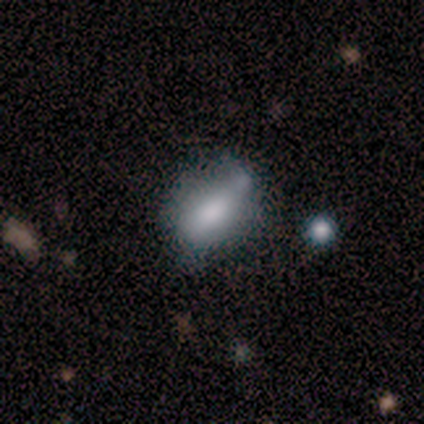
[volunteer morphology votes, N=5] type=smooth (80%); roundness=in between (75%); merging=none (60%).